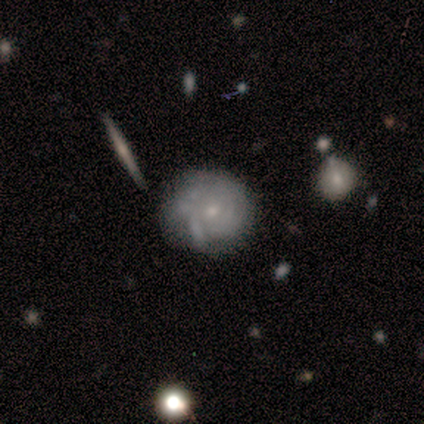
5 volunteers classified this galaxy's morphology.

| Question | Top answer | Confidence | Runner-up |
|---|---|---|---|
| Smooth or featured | smooth | 40% | tied: featured or disk (40%) |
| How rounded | round | 100% | — |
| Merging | none | 75% | minor disturbance (25%) |